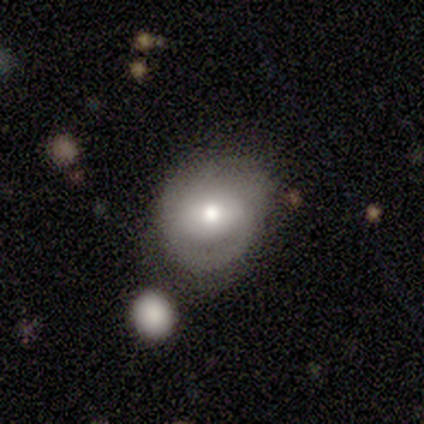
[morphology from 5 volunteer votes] This appears to be a smooth galaxy with no disk features (60%) that is round (100%). Merging: minor disturbance (60%).